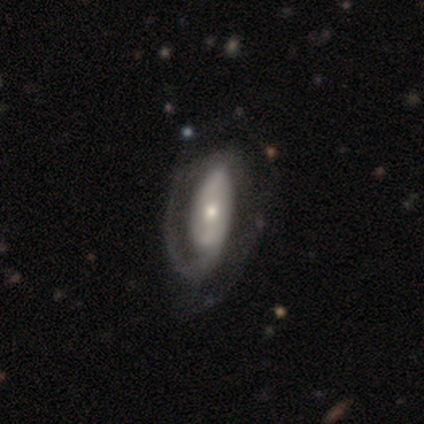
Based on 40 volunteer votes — Smooth or featured?
  - featured or disk: 85% *
  - smooth: 12%
  - star or artifact: 2%
Edge-on disk?
  - no: 91% *
  - yes: 9%
Bar?
  - no: 61% *
  - strong: 23%
  - weak: 16%
Spiral arms?
  - yes: 94% *
  - no: 6%
Spiral winding?
  - medium: 48% *
  - tight: 45%
  - loose: 7%
Spiral arm count?
  - 2: 55% *
  - 1: 28%
  - 3: 7%
  - can't tell: 7%
  - 4: 3%
  - more than 4: 0%
Bulge size?
  - small: 52% *
  - moderate: 32%
  - large: 10%
  - none: 6%
  - dominant: 0%
Merging?
  - none: 38% *
  - major disturbance: 21%
  - minor disturbance: 8%
  - merger: 3%